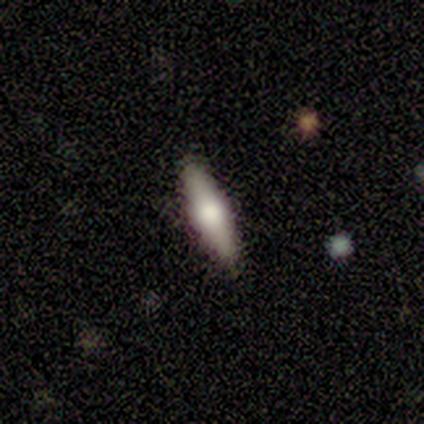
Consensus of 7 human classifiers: Overall: featured or disk (57%; smooth 43%). Edge-on disk: yes (100%). Edge-on bulge: rounded (75%). Merging: none (100%).